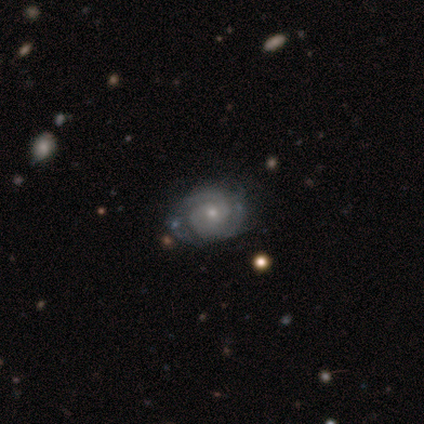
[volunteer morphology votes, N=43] Smooth or featured?
  - featured or disk: 84% *
  - smooth: 9%
  - star or artifact: 7%
Edge-on disk?
  - no: 94% *
  - yes: 6%
Bar?
  - no: 76% *
  - weak: 24%
  - strong: 0%
Spiral arms?
  - yes: 88% *
  - no: 12%
Spiral winding?
  - tight: 67% *
  - medium: 33%
  - loose: 0%
Spiral arm count?
  - 2: 50% *
  - 3: 23%
  - can't tell: 20%
  - 1: 3%
  - more than 4: 3%
  - 4: 0%
Bulge size?
  - small: 74% *
  - moderate: 24%
  - dominant: 3%
  - large: 0%
  - none: 0%
Merging?
  - none: 72% *
  - minor disturbance: 18%
  - merger: 8%
  - major disturbance: 2%